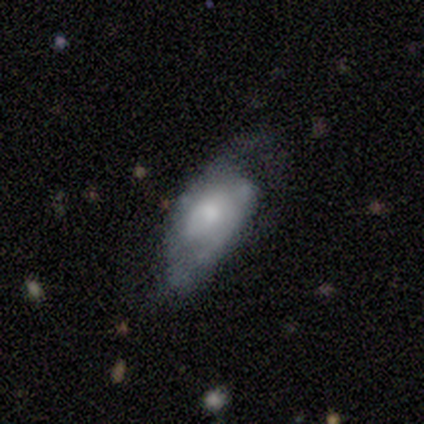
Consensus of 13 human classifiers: A featured or disk galaxy (69%) with no bar (57%), 2 (100%) medium (57%) spiral arms (100%) and a moderate central bulge (86%).

Vote fractions:
- Smooth or featured? featured or disk: 69% / smooth: 23% / star or artifact: 8%
- Edge-on disk? no: 78% / yes: 22%
- Bar? no: 57% / weak: 29% / strong: 14%
- Spiral arms? yes: 100% / no: 0%
- Spiral winding? medium: 57% / loose: 29% / tight: 14%
- Spiral arm count? 2: 100% / 1: 0% / 3: 0% / 4: 0% / more than 4: 0% / can't tell: 0%
- Bulge size? moderate: 86% / small: 14% / dominant: 0% / large: 0% / none: 0%
- Merging? minor disturbance: 50% / major disturbance: 25% / none: 17% / merger: 8%